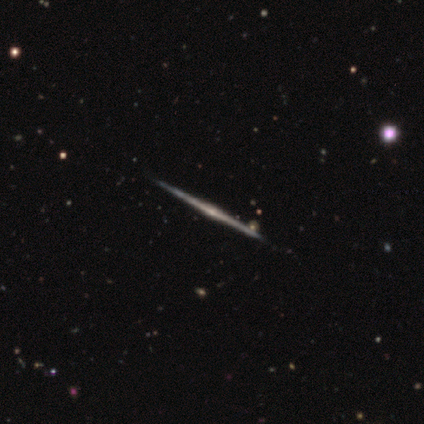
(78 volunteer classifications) Smooth or featured? 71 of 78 (91%) said featured or disk. Edge-on disk? 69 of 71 (97%) said yes. Edge-on bulge? 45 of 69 (65%) said rounded. Merging? 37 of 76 (49%) said none.